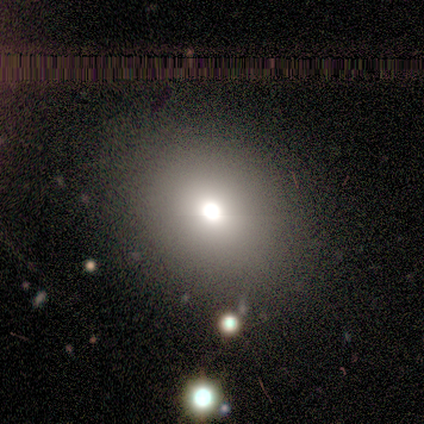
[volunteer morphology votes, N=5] Q: Smooth or featured?
A: smooth (60%); runner-up: featured or disk (20%)
Q: How rounded?
A: round (100%)
Q: Merging?
A: none (75%); runner-up: minor disturbance (25%)